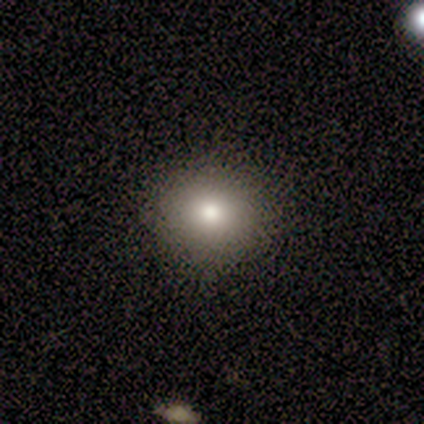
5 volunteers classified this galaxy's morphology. Smooth or featured? 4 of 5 (80%) said smooth. How rounded? 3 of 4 (75%) said round. Merging? 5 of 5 (100%) said none.